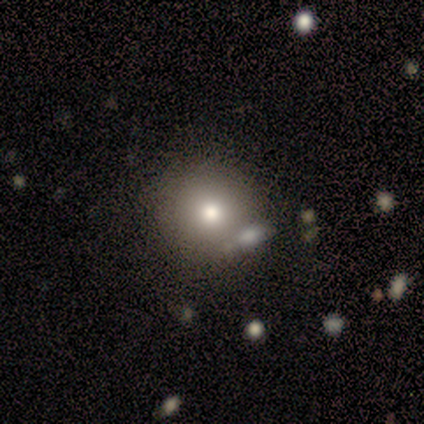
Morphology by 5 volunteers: Volunteers were most divided on "how rounded": round: 75%, in between: 25%, cigar-shaped: 0%. More confident: smooth or featured — smooth (80%); merging — none (80%).